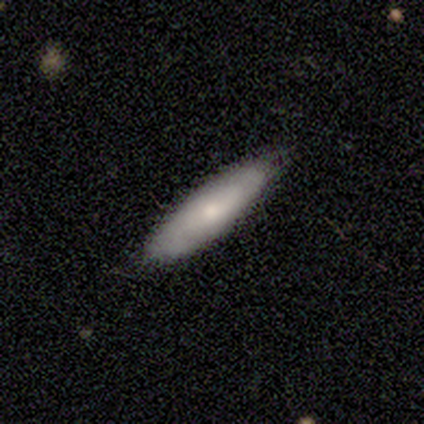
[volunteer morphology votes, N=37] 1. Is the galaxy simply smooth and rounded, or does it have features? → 65% smooth, 30% featured or disk, 5% star or artifact.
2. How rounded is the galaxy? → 62% cigar-shaped, 33% in between, 4% round.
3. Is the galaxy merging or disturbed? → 80% none, 17% minor disturbance, 3% merger, 0% major disturbance.